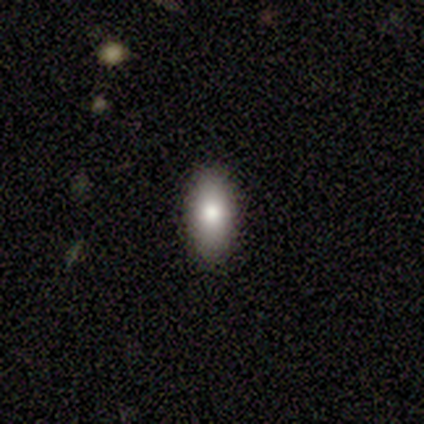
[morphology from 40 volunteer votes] Smooth or featured: smooth — 75% (featured or disk — 15%)
How rounded: in between — 87% (round — 7%)
Merging: none — 94% (minor disturbance — 6%)